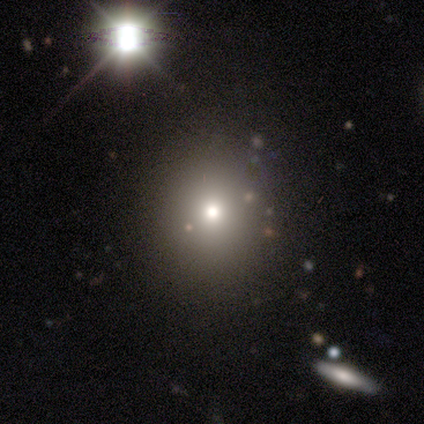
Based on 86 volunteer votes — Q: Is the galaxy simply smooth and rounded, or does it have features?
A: smooth — 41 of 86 (48%).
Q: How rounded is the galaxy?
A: round — 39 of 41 (95%).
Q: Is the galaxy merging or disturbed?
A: none — 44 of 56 (79%).